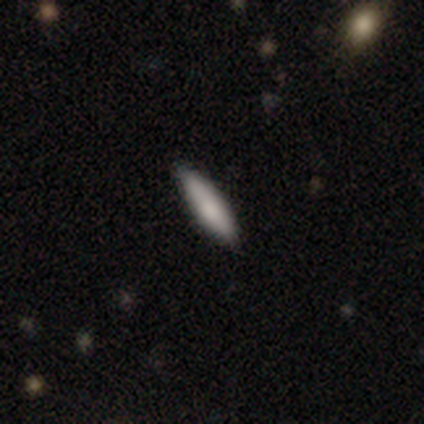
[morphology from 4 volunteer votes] Smooth or featured: smooth — 75% (featured or disk — 25%)
How rounded: cigar-shaped — 100%
Merging: minor disturbance — 75% (none — 25%)